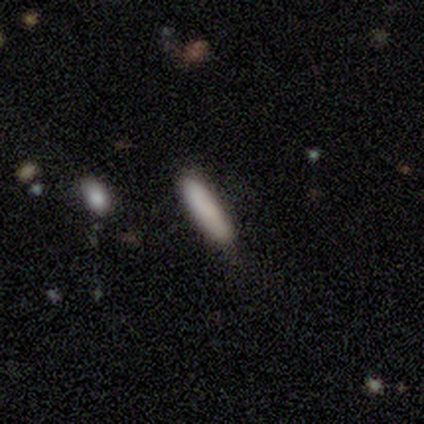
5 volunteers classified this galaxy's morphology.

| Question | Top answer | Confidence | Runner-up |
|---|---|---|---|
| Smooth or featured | smooth | 100% | — |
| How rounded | cigar-shaped | 60% | in between (40%) |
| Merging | none | 100% | — |